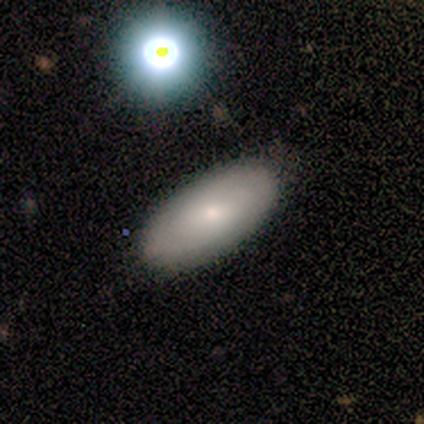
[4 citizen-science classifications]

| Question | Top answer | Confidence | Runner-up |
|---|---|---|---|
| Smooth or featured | smooth | 50% | tied: featured or disk (50%) |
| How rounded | in between | 100% | — |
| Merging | none | 100% | — |